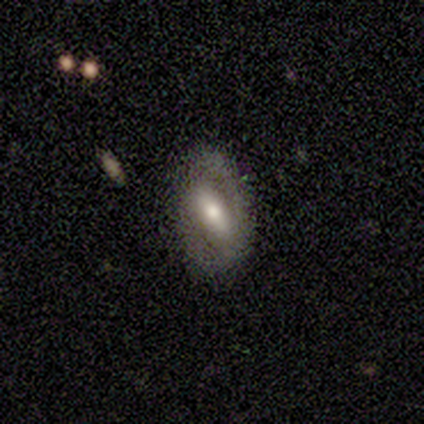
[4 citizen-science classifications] This is likely a featured or disk galaxy (75%). It is clearly not viewed edge-on (100%). Bar: clearly strong (100%). Spiral arm pattern: likely yes (67%). Spiral arm count: clearly 2 (100%). Spiral winding: possibly tight (50%, tied with loose). Central bulge: likely moderate (67%). Merging: likely none (75%).